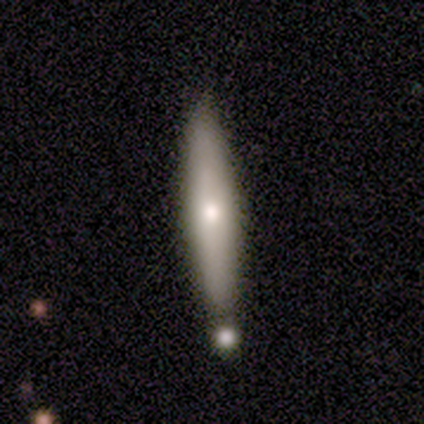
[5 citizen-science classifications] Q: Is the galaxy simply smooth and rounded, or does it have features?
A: smooth — 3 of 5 (60%).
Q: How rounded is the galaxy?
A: cigar-shaped — 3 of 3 (100%).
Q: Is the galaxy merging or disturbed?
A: none — 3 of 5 (60%).